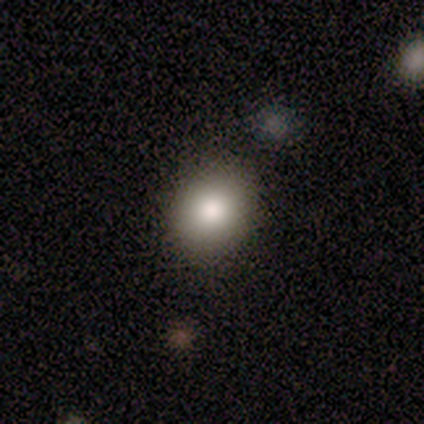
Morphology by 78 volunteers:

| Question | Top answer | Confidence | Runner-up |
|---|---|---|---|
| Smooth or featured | smooth | 77% | star or artifact (13%) |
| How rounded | round | 62% | in between (38%) |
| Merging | none | 57% | minor disturbance (6%) |